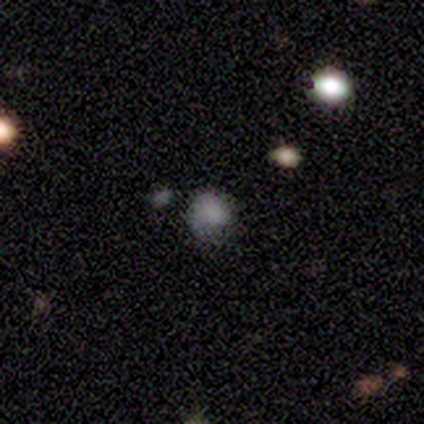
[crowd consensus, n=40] Smooth or featured?
  - smooth: 68% *
  - star or artifact: 20%
  - featured or disk: 12%
How rounded?
  - round: 81% *
  - in between: 19%
  - cigar-shaped: 0%
Merging?
  - none: 56% *
  - minor disturbance: 34%
  - major disturbance: 9%
  - merger: 0%